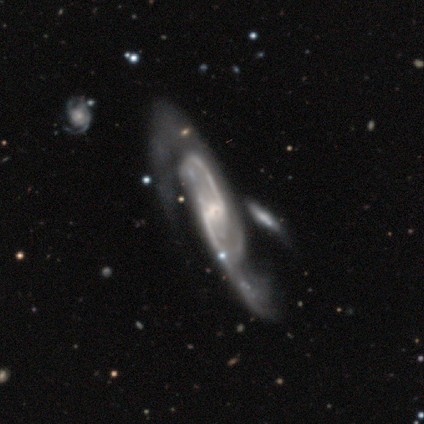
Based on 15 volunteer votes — Overall: featured or disk (87%). Edge-on disk: no (85%). Bar: strong (55%; weak 27%). Spiral arms: yes (100%). Spiral arm count: 2 (100%). Spiral winding: medium (55%; loose 36%). Bulge size: small (55%; none 27%). Merging: none (47%; major disturbance 33%).